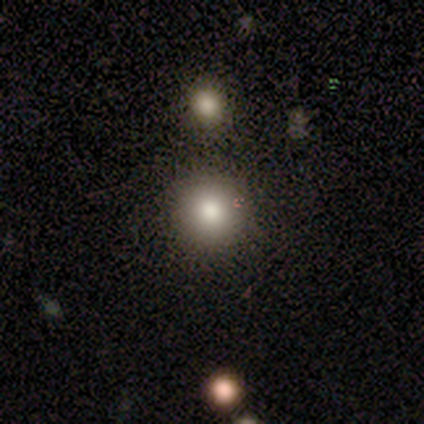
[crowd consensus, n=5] Smooth or featured?
  - smooth: 100% *
  - featured or disk: 0%
  - star or artifact: 0%
How rounded?
  - round: 100% *
  - in between: 0%
  - cigar-shaped: 0%
Merging?
  - none: 80% *
  - minor disturbance: 20%
  - major disturbance: 0%
  - merger: 0%